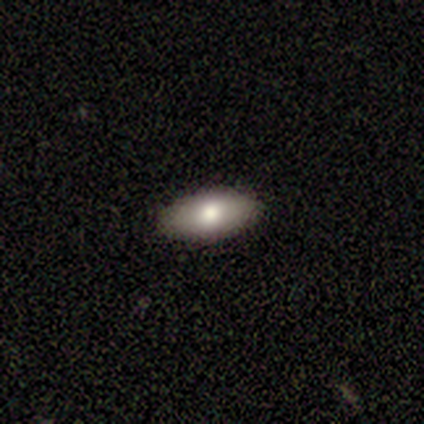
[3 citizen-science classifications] Smooth or featured: smooth — 67% (star or artifact — 33%)
How rounded: in between — 100%
Merging: none — 100%